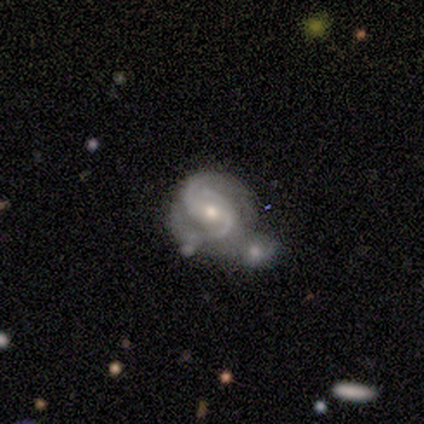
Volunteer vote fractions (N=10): Q: Smooth or featured?
A: featured or disk (80%); runner-up: smooth (10%)
Q: Edge-on disk?
A: no (100%)
Q: Bar?
A: no (50%); runner-up: weak (38%)
Q: Spiral arms?
A: yes (100%)
Q: Spiral winding?
A: tight (50%); tied with: medium (50%)
Q: Spiral arm count?
A: 2 (88%); runner-up: can't tell (12%)
Q: Bulge size?
A: moderate (88%); runner-up: small (12%)
Q: Merging?
A: merger (67%); runner-up: none (33%)